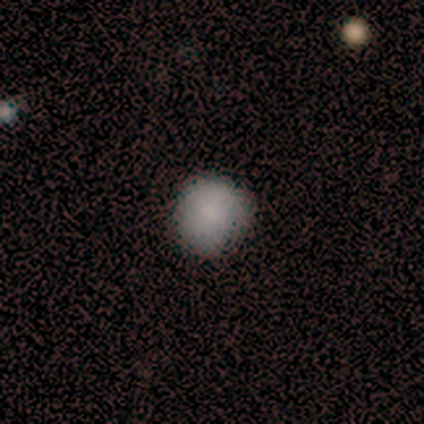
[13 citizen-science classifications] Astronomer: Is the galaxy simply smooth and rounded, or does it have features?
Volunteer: smooth — 85%.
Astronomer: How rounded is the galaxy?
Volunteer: round — 82%.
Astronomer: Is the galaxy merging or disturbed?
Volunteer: none — 92%.